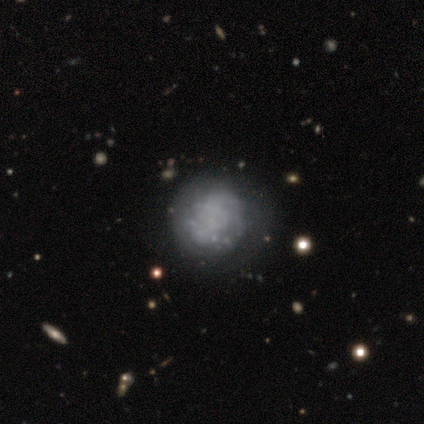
smooth_or_featured: featured or disk (p=0.66) [alt: smooth p=0.30]
disk_edge_on: no (p=1.00)
bar: no (p=1.00)
has_spiral_arms: no (p=0.62) [alt: yes p=0.38]
bulge_size: none (p=0.97) [alt: small p=0.03]
merging: none (p=0.74) [alt: minor disturbance p=0.14]